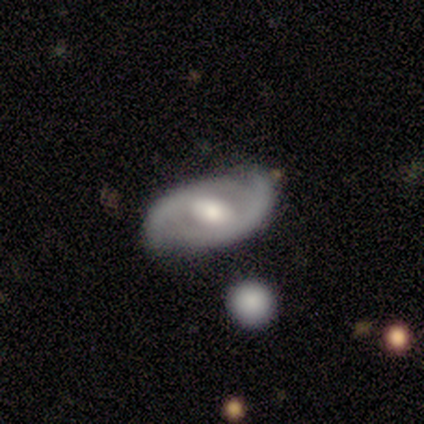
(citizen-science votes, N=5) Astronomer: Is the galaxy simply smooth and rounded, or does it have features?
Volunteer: featured or disk — 60% (runner-up: smooth, 40%).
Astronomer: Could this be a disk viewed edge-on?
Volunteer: no — 100%.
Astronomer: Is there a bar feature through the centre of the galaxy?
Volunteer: weak — 67%.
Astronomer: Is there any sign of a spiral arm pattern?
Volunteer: yes — 100%.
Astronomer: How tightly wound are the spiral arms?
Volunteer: loose — 67%.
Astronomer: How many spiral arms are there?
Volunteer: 2 — 100%.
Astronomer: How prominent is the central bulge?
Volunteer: moderate — 100%.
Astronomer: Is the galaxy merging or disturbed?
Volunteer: none — 60% (runner-up: minor disturbance, 40%).